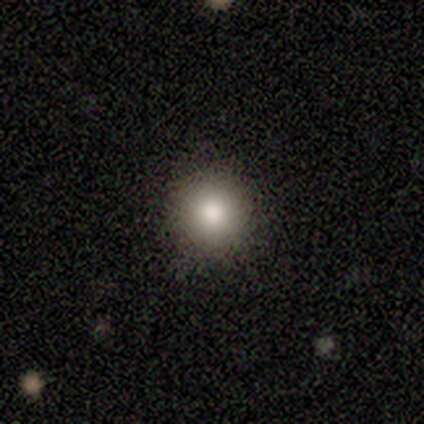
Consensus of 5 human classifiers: Smooth or featured? 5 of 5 (100%) said smooth. How rounded? 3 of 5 (60%) said round. Merging? 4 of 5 (80%) said none.